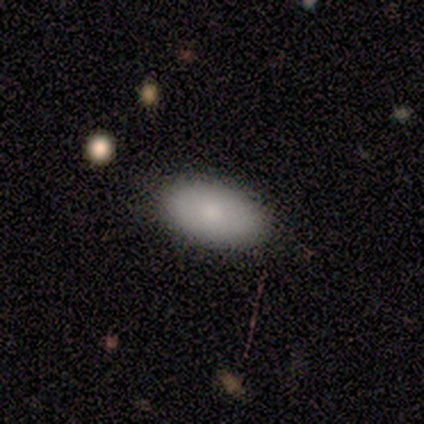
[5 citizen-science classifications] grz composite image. It shows a smooth galaxy with no disk features (80%) that is in between round and cigar-shaped (100%). Merging: none (100%).